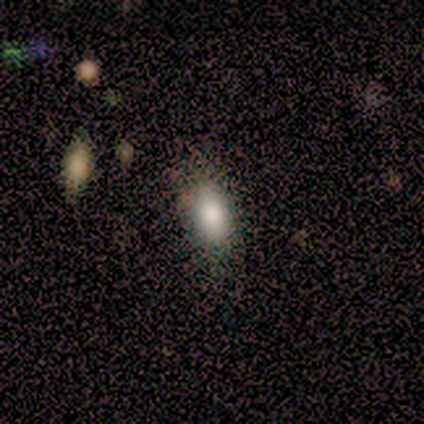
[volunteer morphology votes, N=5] smooth 80%, star or artifact 20%, featured or disk 0%. Down the decision tree: how rounded — in between (100%); merging — none (50%).